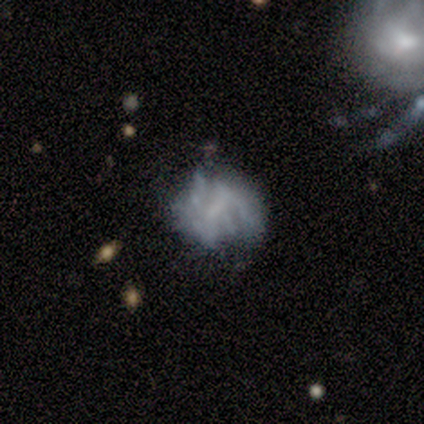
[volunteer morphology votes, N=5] Smooth or featured? 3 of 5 (60%) said featured or disk. Edge-on disk? 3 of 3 (100%) said no. Bar? 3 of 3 (100%) said weak. Spiral arms? 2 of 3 (67%) said no. Bulge size? 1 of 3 (33%, tied with small and none) said moderate. Merging? 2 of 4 (50%) said major disturbance.